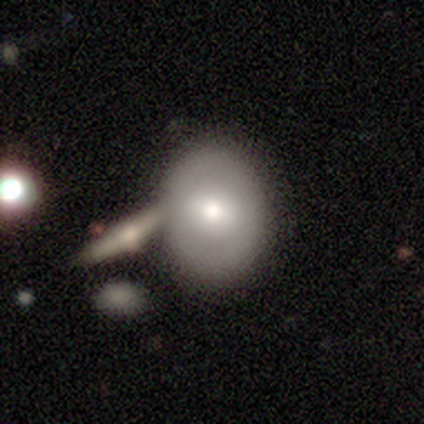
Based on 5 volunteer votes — This appears to be a smooth galaxy with no disk features (40%, tied with featured or disk) that is in between round and cigar-shaped (100%). Merging: none (50%).